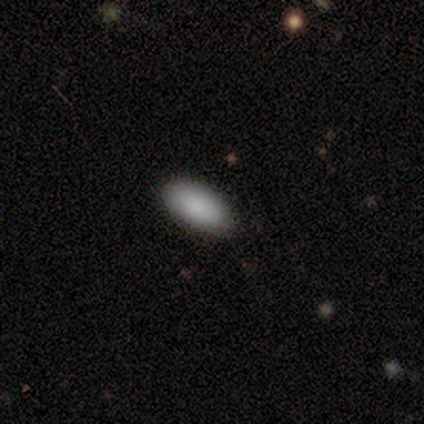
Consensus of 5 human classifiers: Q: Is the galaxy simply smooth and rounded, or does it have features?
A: smooth — 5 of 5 (100%).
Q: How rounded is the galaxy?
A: in between — 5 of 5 (100%).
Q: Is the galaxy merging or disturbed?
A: none — 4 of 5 (80%).